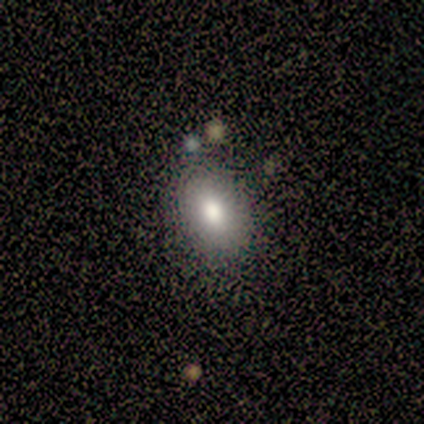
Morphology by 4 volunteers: Consensus on every question: smooth or featured — smooth (100%); how rounded — in between (100%); merging — none (100%).